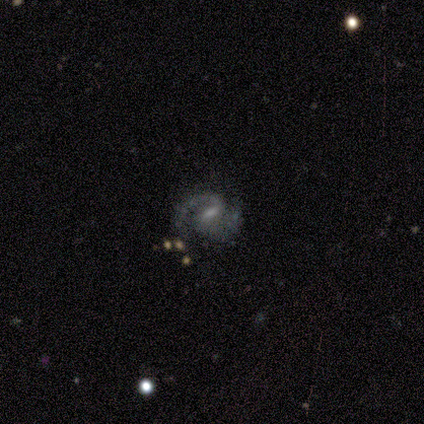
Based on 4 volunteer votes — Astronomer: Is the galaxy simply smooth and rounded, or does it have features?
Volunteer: featured or disk — 100%.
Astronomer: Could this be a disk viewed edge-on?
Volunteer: no — 100%.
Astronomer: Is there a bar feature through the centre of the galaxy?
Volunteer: weak — 75%.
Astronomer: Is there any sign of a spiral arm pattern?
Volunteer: yes — 100%.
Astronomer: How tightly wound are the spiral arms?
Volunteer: loose — 50%.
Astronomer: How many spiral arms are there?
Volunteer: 2 — 100%.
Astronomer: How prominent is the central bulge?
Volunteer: small — 50%.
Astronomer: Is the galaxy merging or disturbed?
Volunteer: none — 75%.